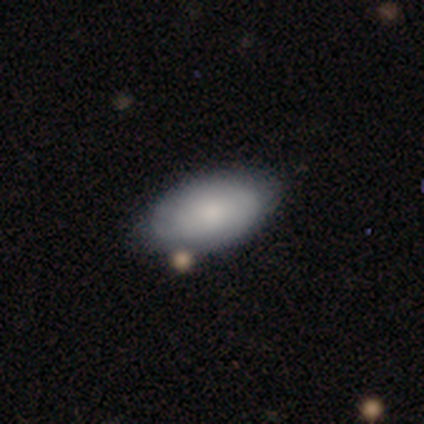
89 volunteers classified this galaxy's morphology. smooth 67%, featured or disk 28%, star or artifact 4%. Down the decision tree: how rounded — in between (93%); merging — none (72%).